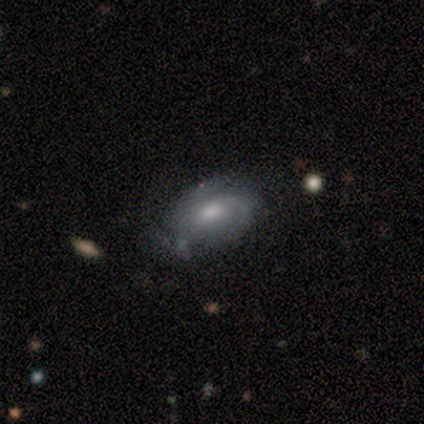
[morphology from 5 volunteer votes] Smooth or featured? featured or disk (80%)
Edge-on disk? no (100%)
Bar? no (75%)
Spiral arms? yes (100%)
Spiral winding? tight (50%)
Spiral arm count? can't tell (75%)
Bulge size? moderate (100%)
Merging? none (80%)